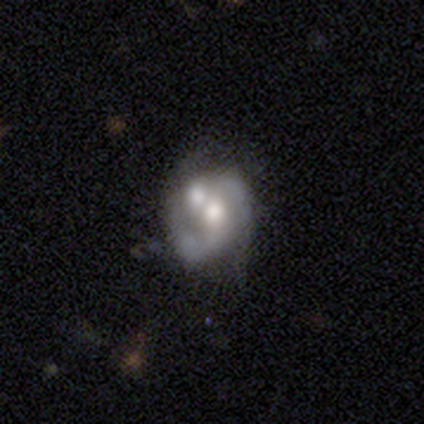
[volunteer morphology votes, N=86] A featured or disk galaxy (69%) with no bar (71%), 2 (84%) medium (47%) spiral arms (73%) and a moderate central bulge (61%).

Vote fractions:
- Smooth or featured? featured or disk: 69% / smooth: 23% / star or artifact: 8%
- Edge-on disk? no: 100% / yes: 0%
- Bar? no: 71% / weak: 24% / strong: 5%
- Spiral arms? yes: 73% / no: 27%
- Spiral winding? medium: 47% / loose: 30% / tight: 23%
- Spiral arm count? 2: 84% / can't tell: 9% / 1: 5% / 3: 2% / 4: 0% / more than 4: 0%
- Bulge size? moderate: 61% / large: 19% / small: 15% / none: 3% / dominant: 2%
- Merging? merger: 54% / none: 30% / minor disturbance: 9% / major disturbance: 6%